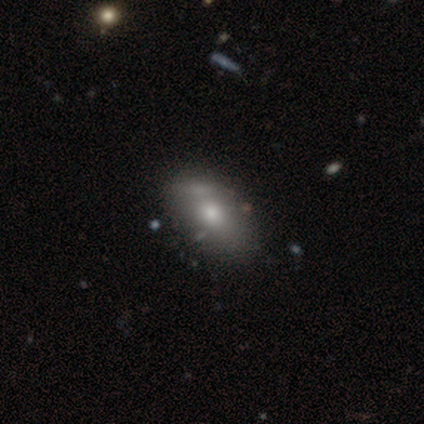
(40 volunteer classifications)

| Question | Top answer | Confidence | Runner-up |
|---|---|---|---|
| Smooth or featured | smooth | 78% | featured or disk (20%) |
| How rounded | in between | 97% | cigar-shaped (3%) |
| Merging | none | 51% | merger (13%) |